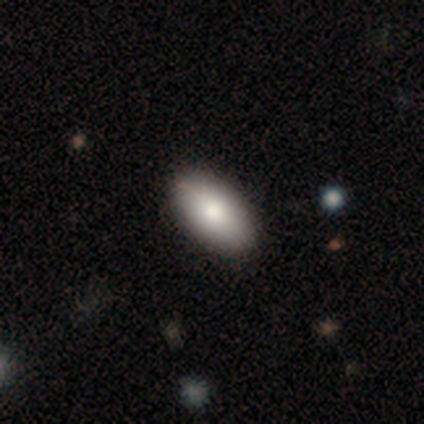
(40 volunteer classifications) smooth-or-featured: smooth: 85% | featured or disk: 10% | star or artifact: 5%
  how-rounded: in between: 100% | round: 0% | cigar-shaped: 0%
  merging: none: 71% | minor disturbance: 5% | merger: 5% | major disturbance: 0%